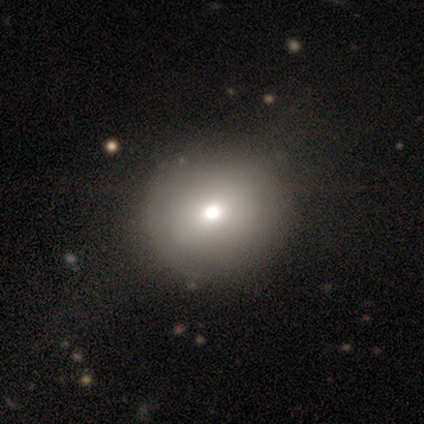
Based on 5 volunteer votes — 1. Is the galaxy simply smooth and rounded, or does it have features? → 80% smooth, 20% star or artifact, 0% featured or disk.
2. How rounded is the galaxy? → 100% round, 0% in between, 0% cigar-shaped.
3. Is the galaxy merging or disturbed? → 50% none, 25% minor disturbance, 25% major disturbance, 0% merger.